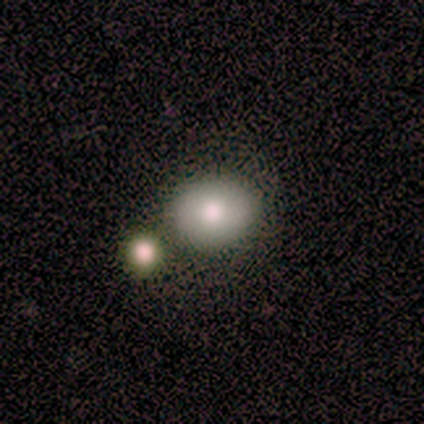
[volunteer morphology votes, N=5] Smooth or featured? smooth (60%)
How rounded? in between (67%)
Merging? none (75%)